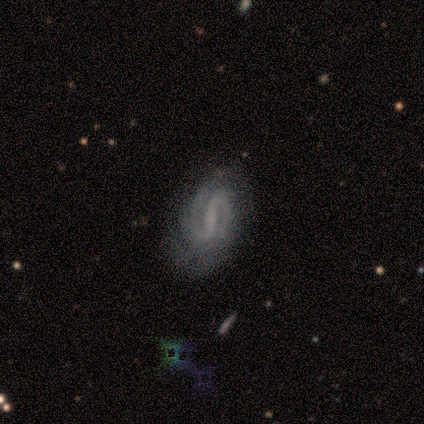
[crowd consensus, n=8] featured or disk 88%, star or artifact 12%, smooth 0%. Down the decision tree: edge-on disk — no (100%); bar — strong (71%); spiral arms — yes (100%); spiral arm count — 2 (71%); spiral winding — medium (57%); bulge size — small (71%); merging — none (86%).